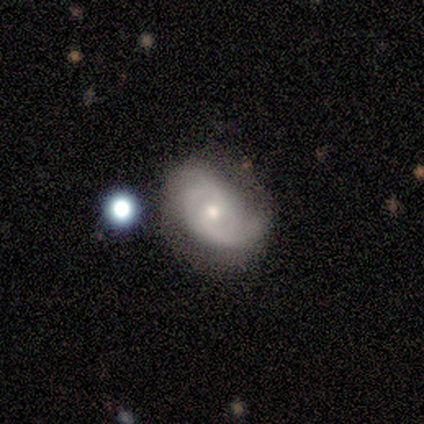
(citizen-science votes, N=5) Smooth or featured? featured or disk (80%)
Edge-on disk? no (100%)
Bar? weak (50%, tied with no)
Spiral arms? yes (75%)
Spiral winding? tight (33%, tied with medium and loose)
Spiral arm count? 2 (100%)
Bulge size? moderate (50%, tied with small)
Merging? none (50%, tied with minor disturbance)